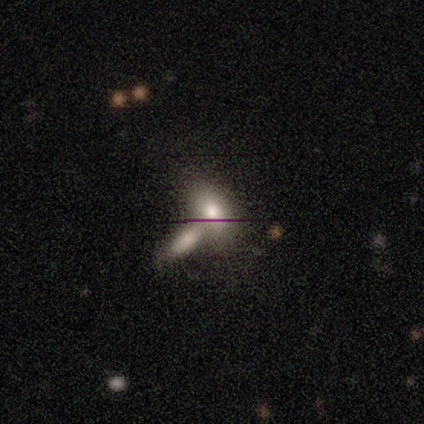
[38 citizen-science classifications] smooth 66%, featured or disk 34%, star or artifact 0%. Down the decision tree: how rounded — in between (88%); merging — merger (66%).